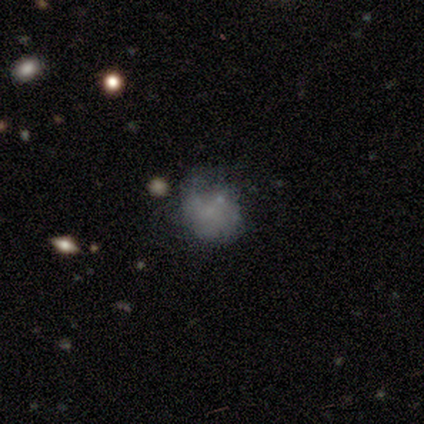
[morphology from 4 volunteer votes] Smooth or featured?
  - smooth: 50% * (tied)
  - star or artifact: 50% * (tied)
  - featured or disk: 0%
How rounded?
  - round: 100% *
  - in between: 0%
  - cigar-shaped: 0%
Merging?
  - none: 50% * (tied)
  - minor disturbance: 50% * (tied)
  - major disturbance: 0%
  - merger: 0%